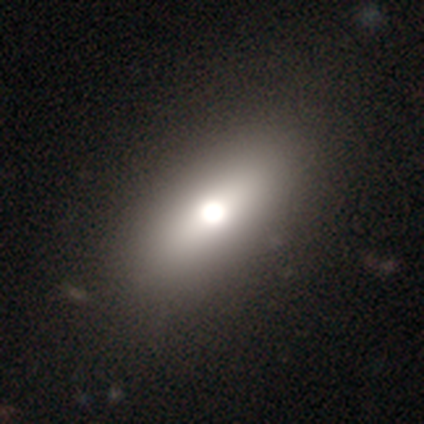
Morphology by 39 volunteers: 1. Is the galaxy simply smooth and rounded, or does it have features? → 69% smooth, 21% featured or disk, 10% star or artifact.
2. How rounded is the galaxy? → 78% in between, 19% cigar-shaped, 4% round.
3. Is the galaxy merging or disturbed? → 74% none, 6% major disturbance, 3% minor disturbance, 0% merger.